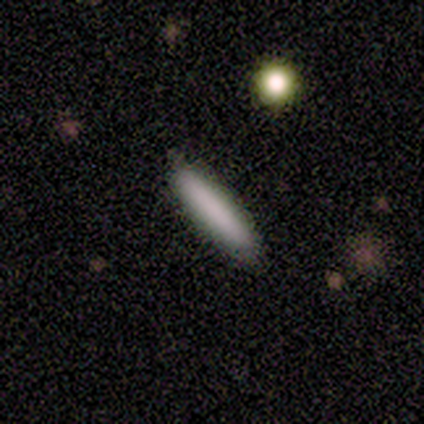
This is clearly a smooth galaxy (80%). How rounded: clearly cigar-shaped (100%). Merging: clearly none (80%).